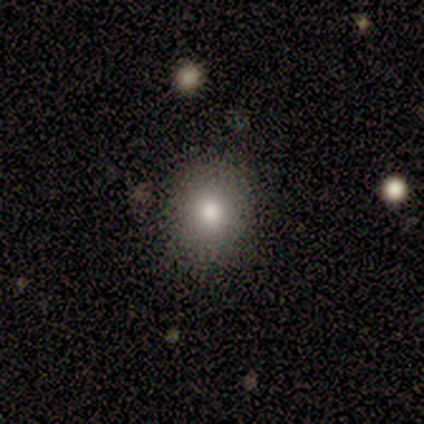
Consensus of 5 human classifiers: Overall: smooth (100%). How rounded: round (80%). Merging: none (100%).